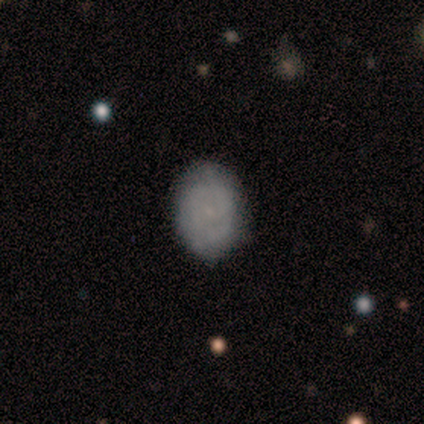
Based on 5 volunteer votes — Smooth or featured? smooth (60%)
How rounded? in between (100%)
Merging? none (60%)